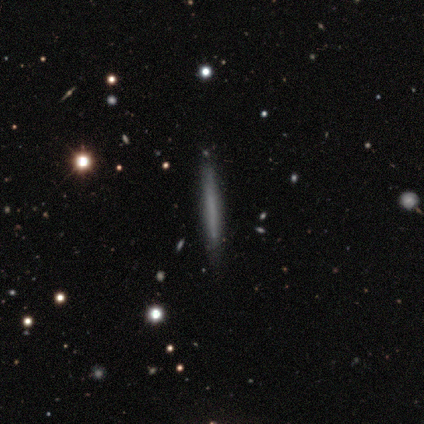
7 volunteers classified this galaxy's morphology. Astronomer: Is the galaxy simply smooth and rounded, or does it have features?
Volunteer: smooth — 43% (runner-up: featured or disk, 29%).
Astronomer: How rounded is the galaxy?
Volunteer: cigar-shaped — 100%.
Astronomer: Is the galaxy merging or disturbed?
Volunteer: none — 80%.